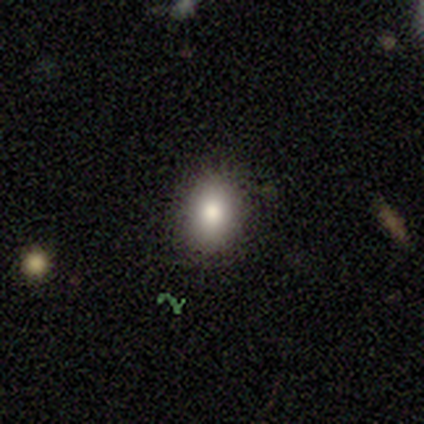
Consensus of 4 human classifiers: Q: Smooth or featured?
A: smooth (100%)
Q: How rounded?
A: in between (75%); runner-up: round (25%)
Q: Merging?
A: none (100%)